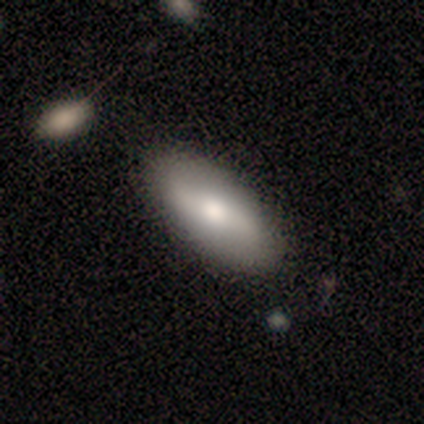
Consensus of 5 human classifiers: Q: Smooth or featured?
A: smooth (80%); runner-up: featured or disk (20%)
Q: How rounded?
A: in between (50%); tied with: cigar-shaped (50%)
Q: Merging?
A: none (80%); runner-up: minor disturbance (20%)